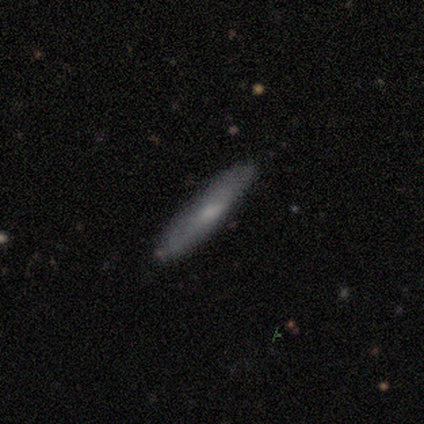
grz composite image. It shows a smooth galaxy with no disk features (64%) that is cigar-shaped (88%). Merging: none (89%).